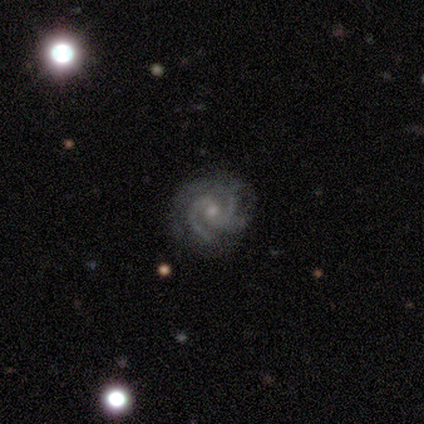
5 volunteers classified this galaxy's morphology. Q: Smooth or featured?
A: featured or disk (100%)
Q: Edge-on disk?
A: no (100%)
Q: Bar?
A: no (80%); runner-up: weak (20%)
Q: Spiral arms?
A: yes (100%)
Q: Spiral winding?
A: tight (80%); runner-up: medium (20%)
Q: Spiral arm count?
A: 3 (40%); tied with: 4 (40%)
Q: Bulge size?
A: small (60%); runner-up: moderate (40%)
Q: Merging?
A: none (100%)